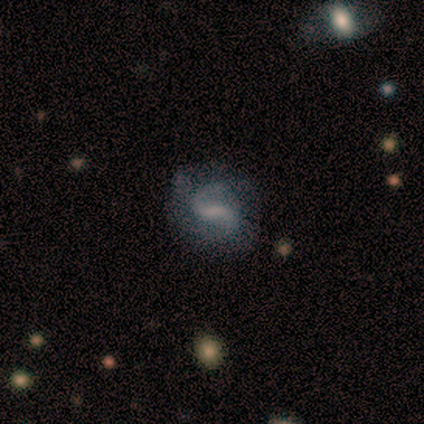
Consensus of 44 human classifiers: Smooth or featured? 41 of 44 (93%) said featured or disk. Edge-on disk? 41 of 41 (100%) said no. Bar? 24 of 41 (59%) said weak. Spiral arms? 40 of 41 (98%) said yes. Spiral winding? 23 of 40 (57%) said medium. Spiral arm count? 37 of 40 (92%) said 2. Bulge size? 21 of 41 (51%) said none. Merging? 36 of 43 (84%) said none.